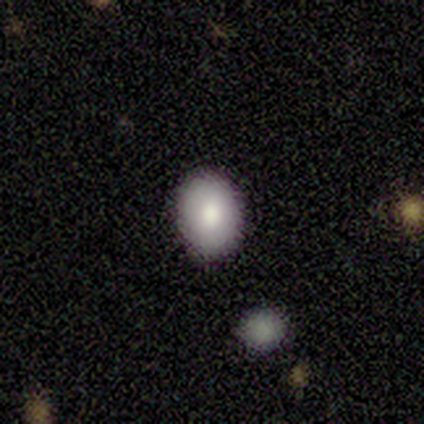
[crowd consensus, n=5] Smooth or featured? smooth (60%)
How rounded? in between (67%)
Merging? none (100%)